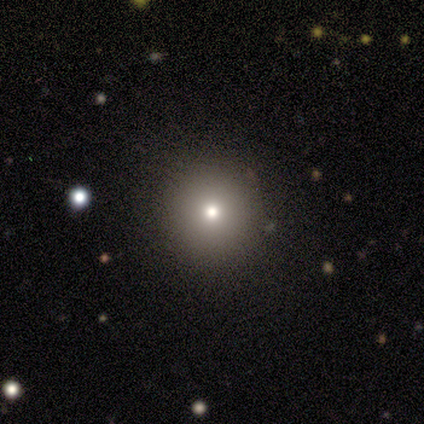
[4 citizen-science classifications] Morphology: type=smooth (75%); roundness=round (100%); merging=none (67%).